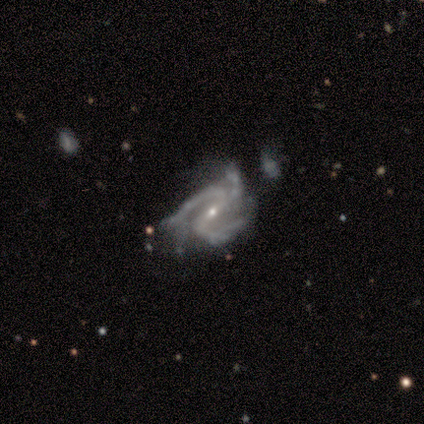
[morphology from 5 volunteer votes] smooth-or-featured: featured or disk: 80% | smooth: 20% | star or artifact: 0%
  disk-edge-on: no: 100% | yes: 0%
    bar: strong: 50% (tied) | weak: 50% (tied) | no: 0%
    has-spiral-arms: yes: 75% | no: 25%
      spiral-winding: medium: 67% | tight: 33% | loose: 0%
      spiral-arm-count: 3: 67% | 2: 33% | 1: 0% | 4: 0% | more than 4: 0% | can't tell: 0%
    bulge-size: small: 75% | moderate: 25% | dominant: 0% | large: 0% | none: 0%
  merging: minor disturbance: 60% | major disturbance: 20% | merger: 20% | none: 0%